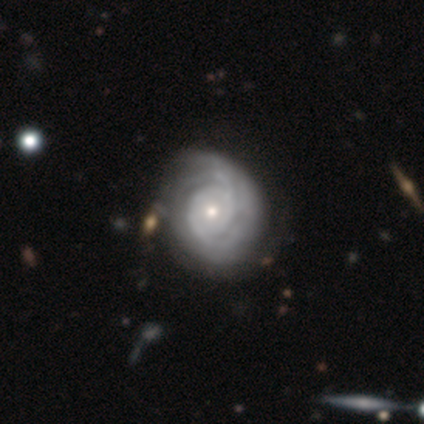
smooth_or_featured: featured or disk (p=0.93) [alt: smooth p=0.05]
disk_edge_on: no (p=0.97) [alt: yes p=0.03]
bar: no (p=0.83) [alt: weak p=0.17]
has_spiral_arms: yes (p=0.94) [alt: no p=0.06]
spiral_winding: tight (p=0.76) [alt: medium p=0.18]
spiral_arm_count: can't tell (p=0.47) [alt: 2 p=0.29]
bulge_size: small (p=0.61) [alt: moderate p=0.31]
merging: none (p=0.69) [alt: merger p=0.08]